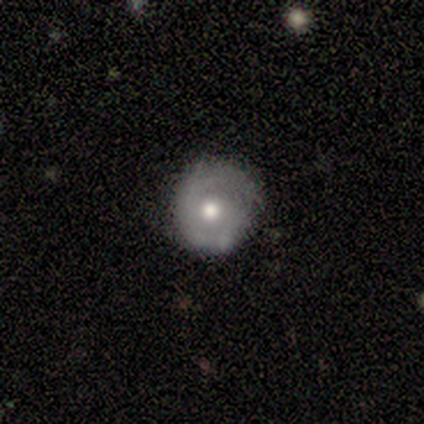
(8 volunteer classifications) Smooth or featured? 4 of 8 (50%, tied with featured or disk) said smooth. How rounded? 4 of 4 (100%) said round. Merging? 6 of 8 (75%) said none.